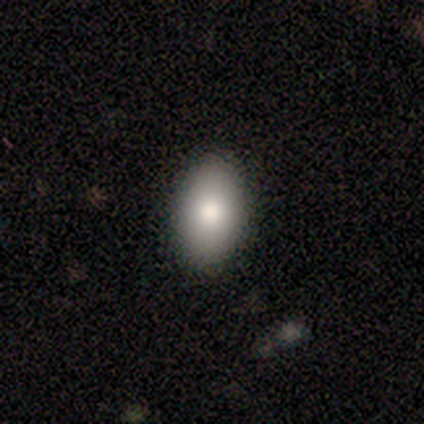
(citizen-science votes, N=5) Overall: smooth (100%). How rounded: in between (80%). Merging: none (100%).